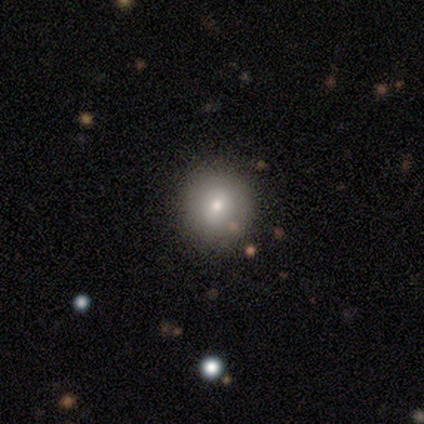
A smooth galaxy with no disk features (50%, tied with featured or disk) that is round (100%). Merging: none (100%).